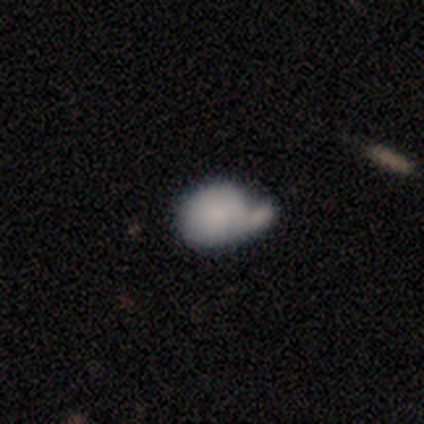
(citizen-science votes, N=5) smooth 60%, star or artifact 40%, featured or disk 0%. Down the decision tree: how rounded — in between (67%); merging — none (67%).